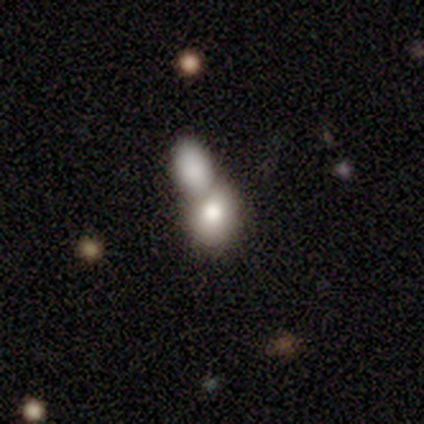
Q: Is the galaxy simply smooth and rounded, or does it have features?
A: smooth — 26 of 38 (68%).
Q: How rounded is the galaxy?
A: in between — 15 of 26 (58%).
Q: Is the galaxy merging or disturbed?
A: merger — 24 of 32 (75%).